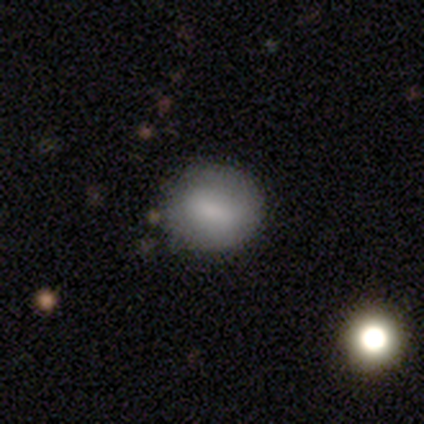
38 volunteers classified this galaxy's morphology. Smooth or featured?
  - smooth: 87% *
  - featured or disk: 13%
  - star or artifact: 0%
How rounded?
  - round: 82% *
  - in between: 18%
  - cigar-shaped: 0%
Merging?
  - none: 76% *
  - minor disturbance: 21%
  - major disturbance: 3%
  - merger: 0%